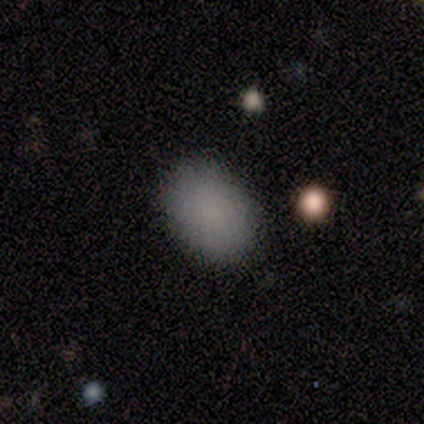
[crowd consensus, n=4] This appears to be a smooth galaxy with no disk features (75%) that is in between round and cigar-shaped (100%). Merging: none (100%).